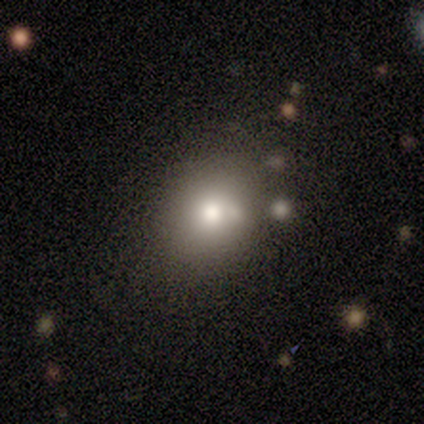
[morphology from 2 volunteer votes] Q: Smooth or featured?
A: smooth (50%); tied with: star or artifact (50%)
Q: How rounded?
A: round (100%)
Q: Merging?
A: none (100%)